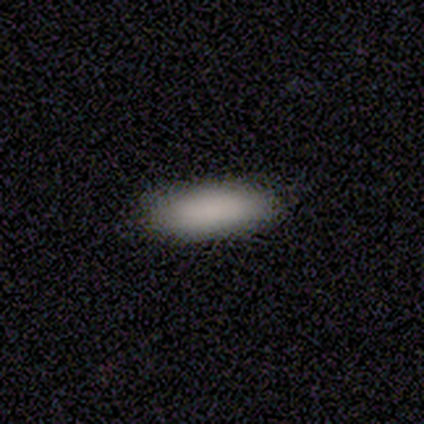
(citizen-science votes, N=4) This appears to be a smooth galaxy with no disk features (100%) that is cigar-shaped (100%). Merging: none (100%).